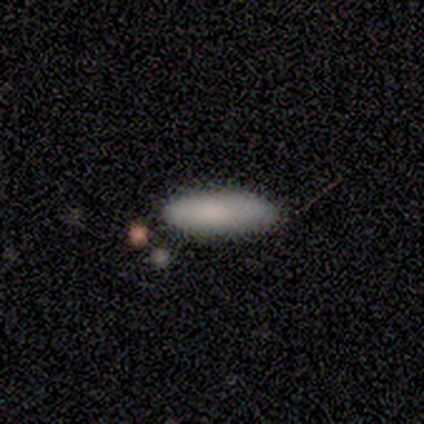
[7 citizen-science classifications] smooth_or_featured: smooth (p=1.00)
how_rounded: in between (p=0.71) [alt: cigar-shaped p=0.29]
merging: none (p=1.00)